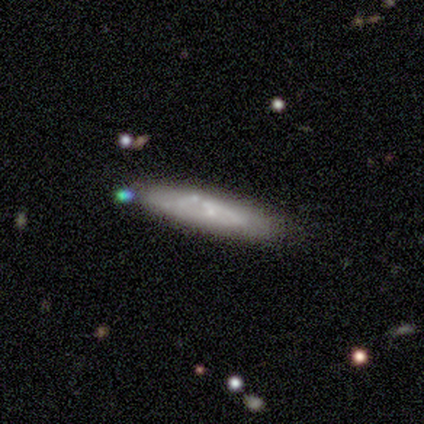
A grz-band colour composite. It shows a featured or disk galaxy (67%) with no bar (86%), no spiral arms (86%) and a small central bulge (50%). Merging: none (75%).